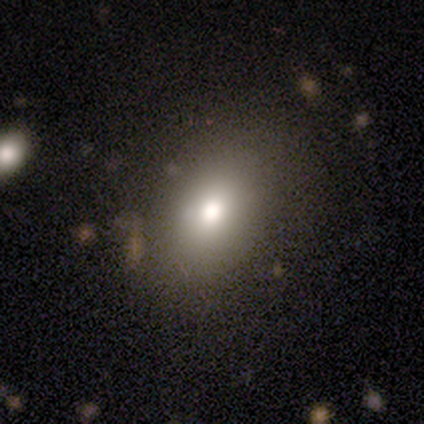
This appears to be a smooth galaxy with no disk features (75%) that is in between round and cigar-shaped (67%). Merging: none (100%).